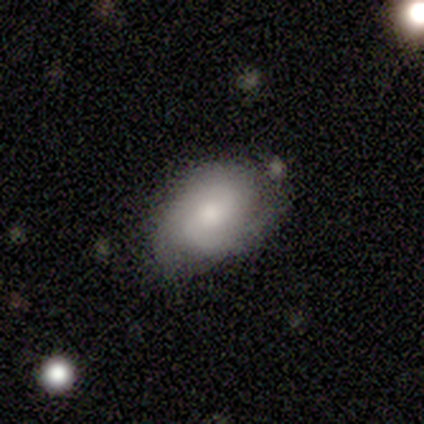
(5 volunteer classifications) This appears to be a featured or disk galaxy (60%) with a weak bar (50%, tied with no), 2 (50%, tied with can't tell) tight (50%, tied with medium) spiral arms (100%) and a moderate central bulge (100%). Merging: none (80%).